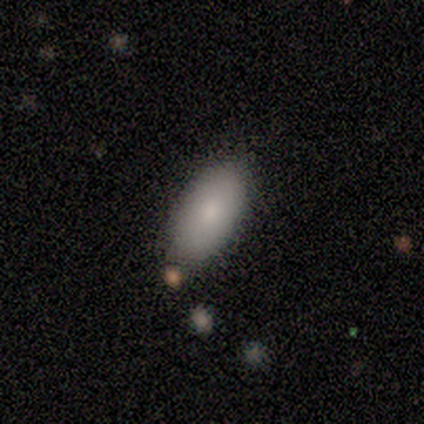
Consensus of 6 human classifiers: smooth 100%, featured or disk 0%, star or artifact 0%. Down the decision tree: how rounded — in between (100%); merging — none (50%).